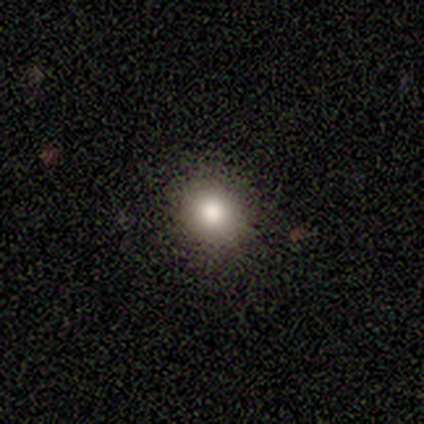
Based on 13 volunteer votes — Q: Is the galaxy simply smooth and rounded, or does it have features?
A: smooth — 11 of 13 (85%).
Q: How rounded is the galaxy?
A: round — 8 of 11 (73%).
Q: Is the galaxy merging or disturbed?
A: none — 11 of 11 (100%).